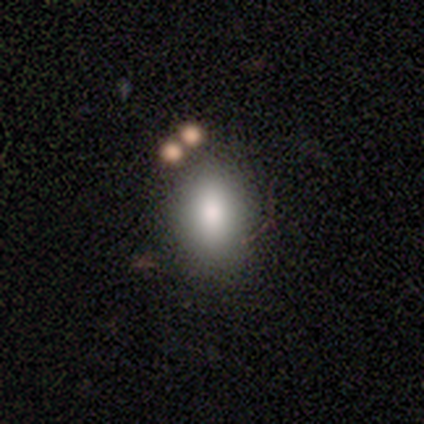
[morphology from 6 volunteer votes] Smooth or featured? 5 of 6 (83%) said smooth. How rounded? 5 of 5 (100%) said in between. Merging? 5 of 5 (100%) said none.